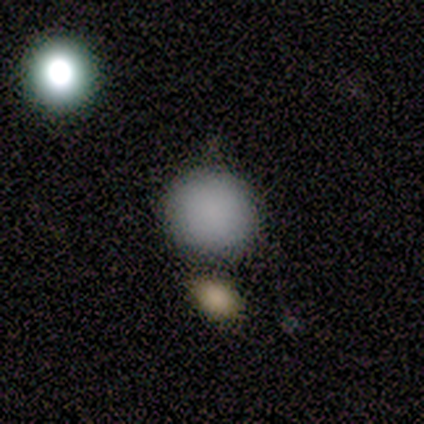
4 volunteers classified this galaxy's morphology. A smooth galaxy with no disk features (100%) that is round (100%).

Vote fractions:
- Smooth or featured? smooth: 100% / featured or disk: 0% / star or artifact: 0%
- How rounded? round: 100% / in between: 0% / cigar-shaped: 0%
- Merging? merger: 50% / none: 25% / minor disturbance: 25% / major disturbance: 0%